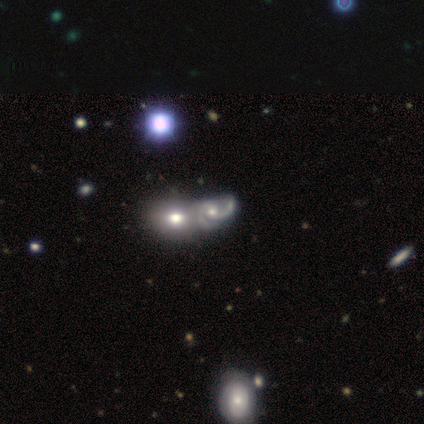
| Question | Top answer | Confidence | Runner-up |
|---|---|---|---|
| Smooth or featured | featured or disk | 80% | star or artifact (20%) |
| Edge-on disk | no | 100% | — |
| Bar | no | 100% | — |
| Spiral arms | yes | 75% | no (25%) |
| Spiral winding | medium | 67% | loose (33%) |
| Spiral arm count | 2 | 100% | — |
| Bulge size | moderate | 50% | tied: small (50%) |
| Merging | major disturbance | 50% | none (25%) |